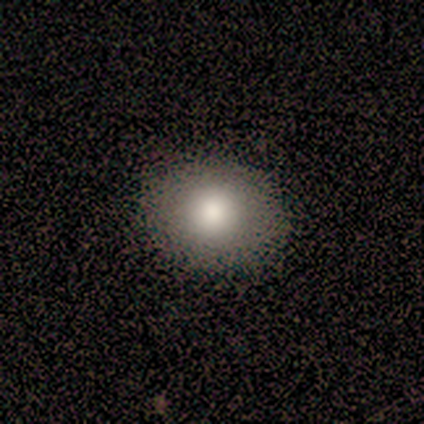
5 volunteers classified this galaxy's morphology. Q: Smooth or featured?
A: smooth (100%)
Q: How rounded?
A: round (60%); runner-up: in between (40%)
Q: Merging?
A: none (100%)